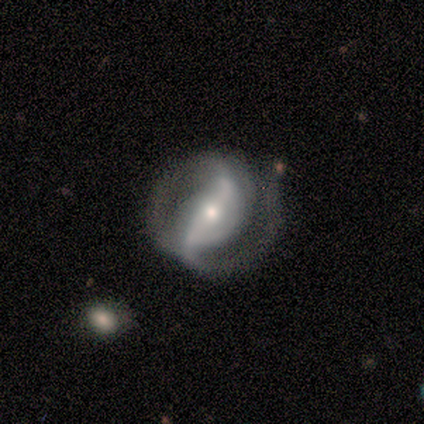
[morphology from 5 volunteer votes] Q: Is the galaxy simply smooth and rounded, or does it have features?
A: featured or disk — 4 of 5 (80%).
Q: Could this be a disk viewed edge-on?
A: no — 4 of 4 (100%).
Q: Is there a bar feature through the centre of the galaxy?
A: strong — 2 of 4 (50%, tied with weak).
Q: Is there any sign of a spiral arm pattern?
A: yes — 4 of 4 (100%).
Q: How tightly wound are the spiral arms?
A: tight — 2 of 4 (50%, tied with medium).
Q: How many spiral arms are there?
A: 2 — 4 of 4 (100%).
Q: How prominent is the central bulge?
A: small — 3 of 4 (75%).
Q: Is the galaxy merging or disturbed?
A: none — 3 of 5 (60%).